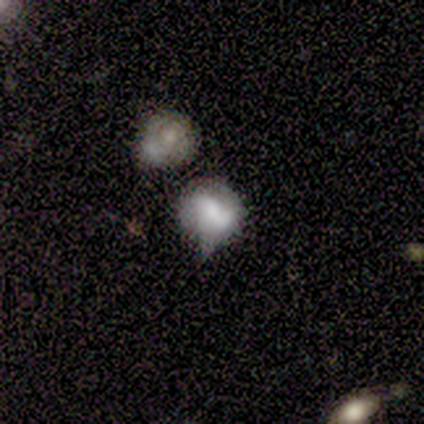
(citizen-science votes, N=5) A smooth galaxy with no disk features (40%, tied with featured or disk) that is round (100%).

Vote fractions:
- Smooth or featured? smooth: 40% (tied) / featured or disk: 40% (tied) / star or artifact: 20%
- How rounded? round: 100% / in between: 0% / cigar-shaped: 0%
- Merging? none: 50% (tied) / major disturbance: 50% (tied) / minor disturbance: 0% / merger: 0%